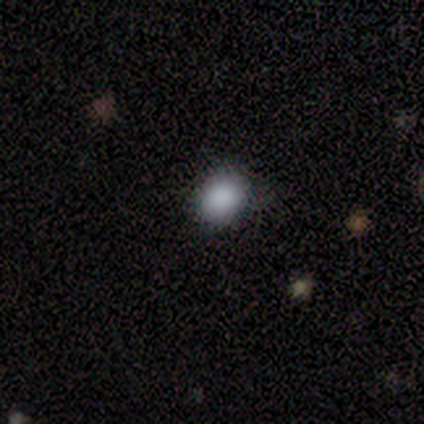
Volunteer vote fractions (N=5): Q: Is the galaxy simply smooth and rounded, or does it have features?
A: smooth — 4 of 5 (80%).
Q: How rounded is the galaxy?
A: round — 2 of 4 (50%, tied with in between).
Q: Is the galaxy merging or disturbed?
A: none — 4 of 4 (100%).